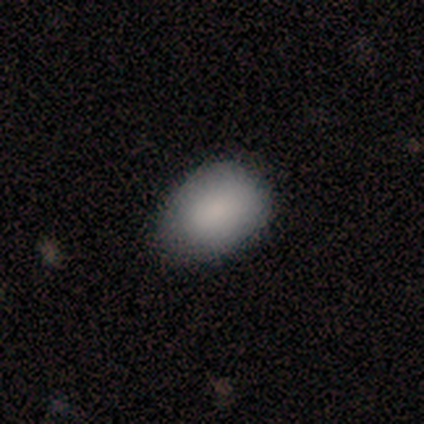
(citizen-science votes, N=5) A smooth galaxy with no disk features (100%) that is in between round and cigar-shaped (80%).

Vote fractions:
- Smooth or featured? smooth: 100% / featured or disk: 0% / star or artifact: 0%
- How rounded? in between: 80% / round: 20% / cigar-shaped: 0%
- Merging? minor disturbance: 80% / none: 20% / major disturbance: 0% / merger: 0%